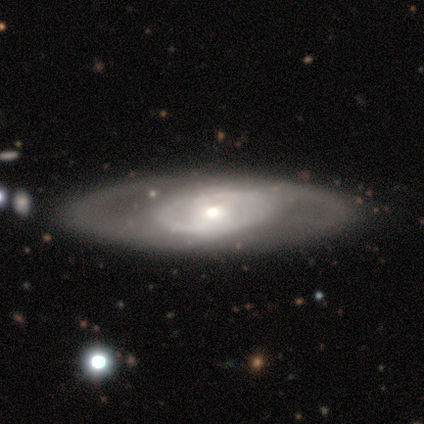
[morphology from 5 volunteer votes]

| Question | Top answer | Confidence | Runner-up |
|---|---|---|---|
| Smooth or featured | featured or disk | 60% | smooth (40%) |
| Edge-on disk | no | 100% | — |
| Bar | no | 67% | weak (33%) |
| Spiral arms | yes | 67% | no (33%) |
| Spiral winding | tight | 100% | — |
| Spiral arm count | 2 | 50% | tied: can't tell (50%) |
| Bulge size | moderate | 67% | large (33%) |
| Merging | none | 60% | minor disturbance (20%) |